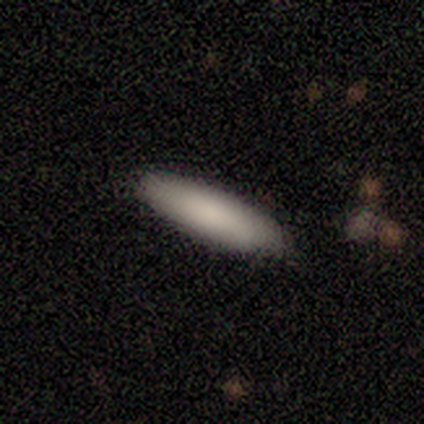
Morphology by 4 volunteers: Smooth or featured? 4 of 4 (100%) said smooth. How rounded? 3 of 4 (75%) said in between. Merging? 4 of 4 (100%) said none.